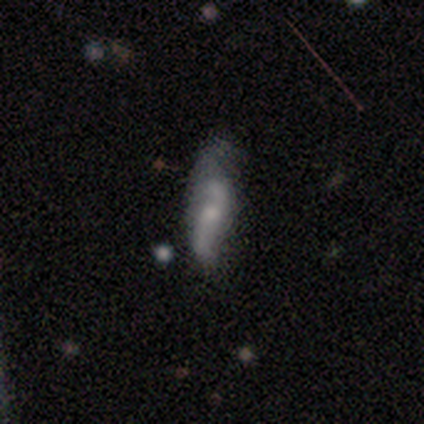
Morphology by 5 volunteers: This is likely a smooth galaxy (60%). How rounded: likely cigar-shaped (67%). Merging: marginally major disturbance (40%).